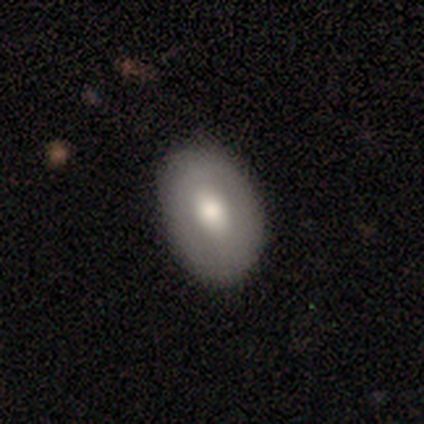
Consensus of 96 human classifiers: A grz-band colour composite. It shows a smooth galaxy with no disk features (66%) that is in between round and cigar-shaped (81%). Merging: none (85%).